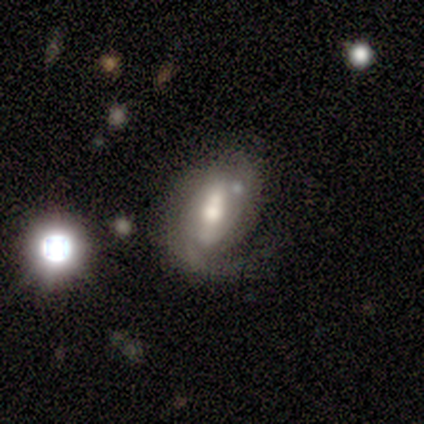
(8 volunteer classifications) featured or disk 88%, smooth 12%, star or artifact 0%. Down the decision tree: edge-on disk — no (86%); bar — weak (50%); spiral arms — yes (83%); spiral arm count — 1 (60%); spiral winding — tight (40%, tied with medium); bulge size — moderate (50%); merging — minor disturbance (62%).